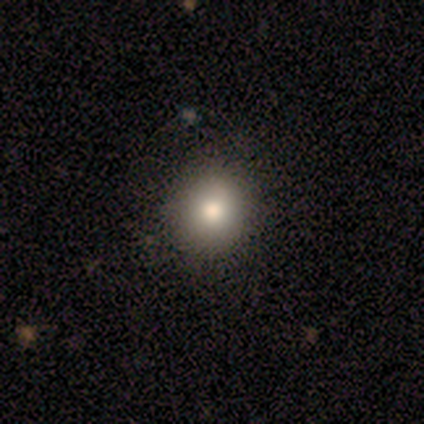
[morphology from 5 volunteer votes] Volunteers were most divided on "how rounded": round: 75%, in between: 25%, cigar-shaped: 0%. More confident: smooth or featured — smooth (80%); merging — none (80%).